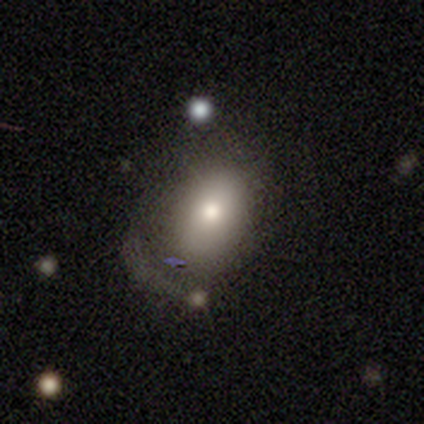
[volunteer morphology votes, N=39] This appears to be a smooth galaxy with no disk features (69%) that is in between round and cigar-shaped (70%). Merging: minor disturbance (36%).